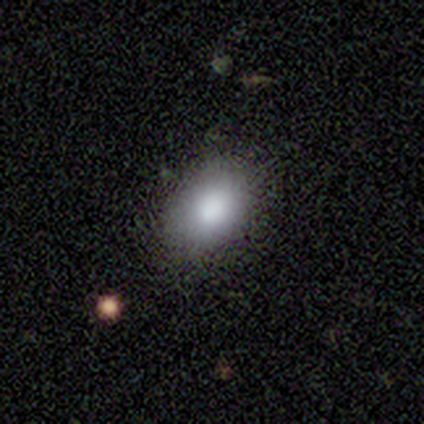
smooth 76%, star or artifact 16%, featured or disk 8%. Down the decision tree: how rounded — in between (93%); merging — none (94%).